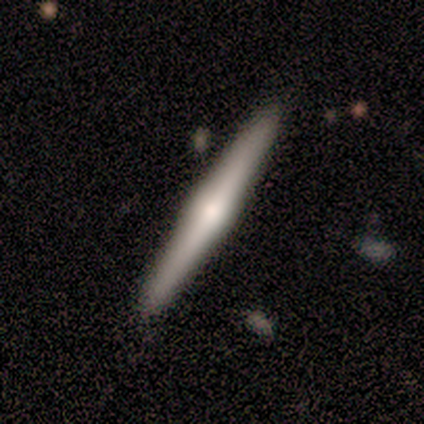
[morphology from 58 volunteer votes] smooth_or_featured: featured or disk (p=0.72) [alt: smooth p=0.26]
disk_edge_on: yes (p=0.95) [alt: no p=0.05]
edge_on_bulge: rounded (p=0.82) [alt: boxy p=0.15]
merging: none (p=0.88) [alt: minor disturbance p=0.11]